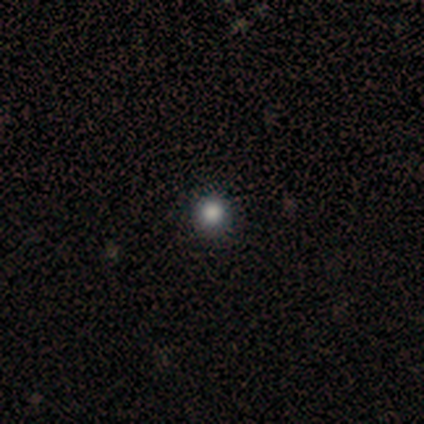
Smooth or featured? 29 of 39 (74%) said smooth. How rounded? 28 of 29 (97%) said round. Merging? 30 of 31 (97%) said none.